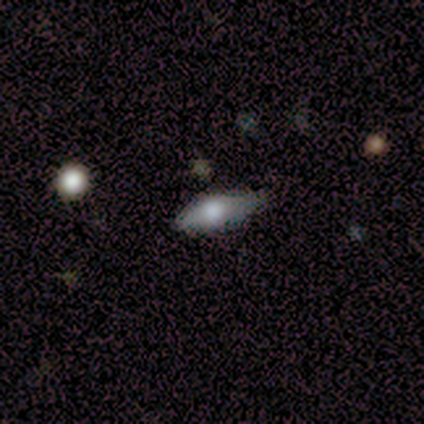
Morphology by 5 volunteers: Smooth or featured? 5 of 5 (100%) said smooth. How rounded? 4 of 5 (80%) said in between. Merging? 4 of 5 (80%) said none.